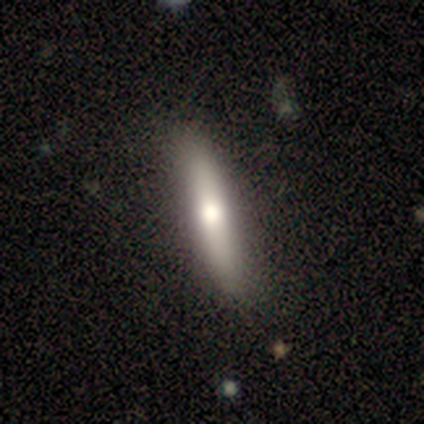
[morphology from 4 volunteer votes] This appears to be a smooth galaxy with no disk features (50%, tied with featured or disk) that is cigar-shaped (100%). Merging: none (75%).